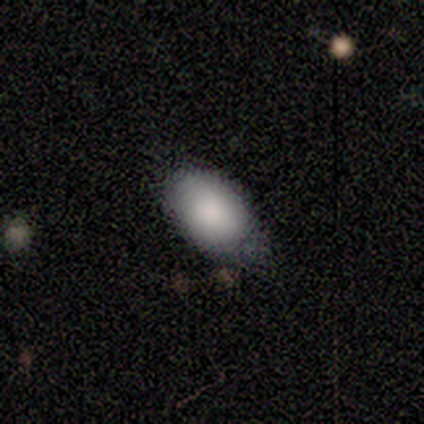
Morphology: type=smooth (100%); roundness=in between (80%); merging=none (60%).